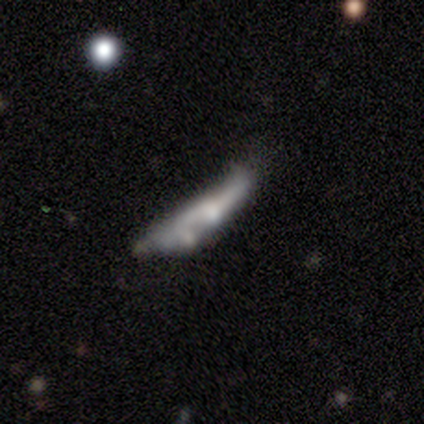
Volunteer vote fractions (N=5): Smooth or featured?
  - featured or disk: 60% *
  - smooth: 40%
  - star or artifact: 0%
Edge-on disk?
  - no: 67% *
  - yes: 33%
Bar?
  - strong: 50% * (tied)
  - no: 50% * (tied)
  - weak: 0%
Spiral arms?
  - yes: 50% * (tied)
  - no: 50% * (tied)
Spiral winding?
  - loose: 100% *
  - tight: 0%
  - medium: 0%
Spiral arm count?
  - 2: 100% *
  - 1: 0%
  - 3: 0%
  - 4: 0%
  - more than 4: 0%
  - can't tell: 0%
Bulge size?
  - large: 50% * (tied)
  - none: 50% * (tied)
  - dominant: 0%
  - moderate: 0%
  - small: 0%
Merging?
  - major disturbance: 40% * (tied)
  - merger: 40% * (tied)
  - minor disturbance: 20%
  - none: 0%